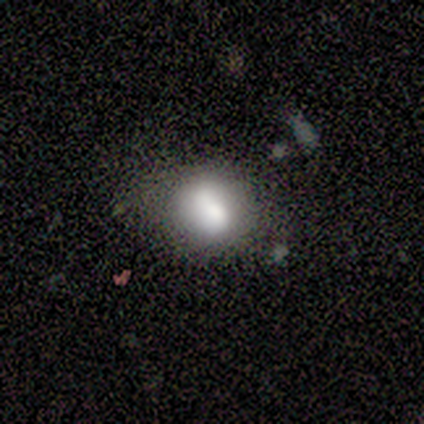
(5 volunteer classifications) smooth_or_featured: smooth (p=0.80) [alt: star or artifact p=0.20]
how_rounded: round (p=0.75) [alt: in between p=0.25]
merging: none (p=0.50) [tied with: minor disturbance p=0.50]